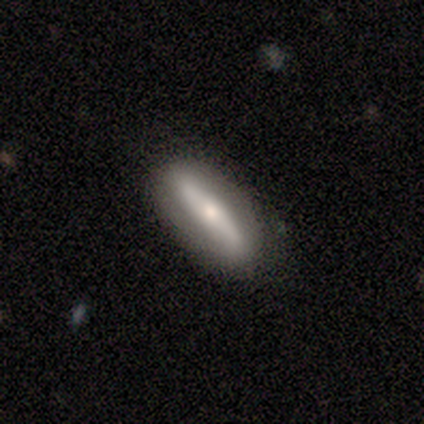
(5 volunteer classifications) smooth_or_featured: smooth (p=0.60) [alt: featured or disk p=0.20]
how_rounded: in between (p=0.67) [alt: cigar-shaped p=0.33]
merging: none (p=1.00)